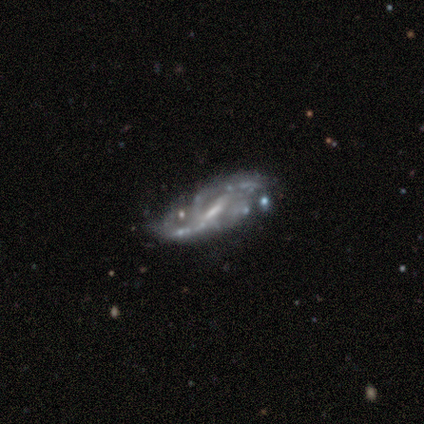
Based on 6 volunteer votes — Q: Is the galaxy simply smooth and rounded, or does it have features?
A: featured or disk — 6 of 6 (100%).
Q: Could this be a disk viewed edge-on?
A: no — 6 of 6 (100%).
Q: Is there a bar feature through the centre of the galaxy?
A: strong — 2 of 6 (33%, tied with weak and no).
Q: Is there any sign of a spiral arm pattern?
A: yes — 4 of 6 (67%).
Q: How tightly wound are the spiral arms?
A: medium — 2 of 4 (50%).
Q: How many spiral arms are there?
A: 2 — 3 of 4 (75%).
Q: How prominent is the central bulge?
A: moderate — 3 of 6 (50%).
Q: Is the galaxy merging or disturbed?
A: none — 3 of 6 (50%).